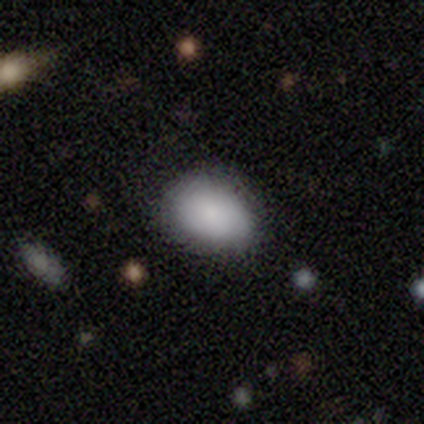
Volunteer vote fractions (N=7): Smooth or featured? 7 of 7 (100%) said smooth. How rounded? 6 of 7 (86%) said in between. Merging? 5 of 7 (71%) said none.